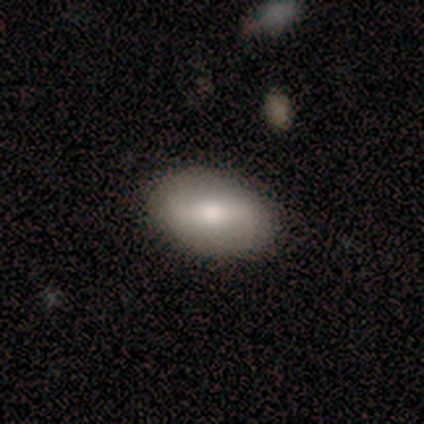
A smooth galaxy with no disk features (52%) that is in between round and cigar-shaped (95%). Merging: none (62%).